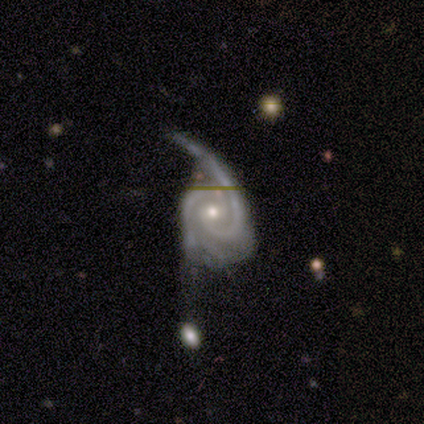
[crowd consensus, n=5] Morphology: type=featured or disk (100%); edge-on=no (80%); bar=no (50%); spiral arms=yes (100%); winding=medium (50%); arm count=2 (100%); bulge=moderate (75%); merging=major disturbance (60%).